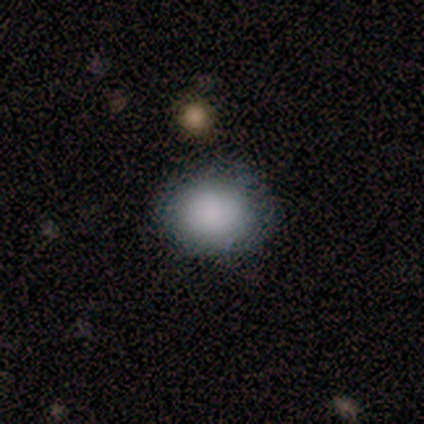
Smooth or featured?
  - smooth: 100% *
  - featured or disk: 0%
  - star or artifact: 0%
How rounded?
  - in between: 60% *
  - round: 40%
  - cigar-shaped: 0%
Merging?
  - none: 100% *
  - minor disturbance: 0%
  - major disturbance: 0%
  - merger: 0%